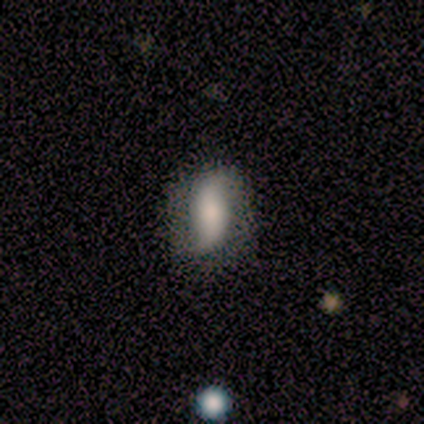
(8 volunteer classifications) Overall: smooth (75%). How rounded: in between (83%). Merging: none (50%, tied with minor disturbance).